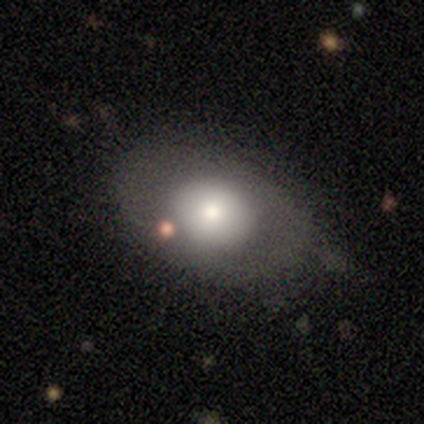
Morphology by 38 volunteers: smooth-or-featured: smooth: 74% | featured or disk: 18% | star or artifact: 8%
  how-rounded: in between: 64% | round: 36% | cigar-shaped: 0%
  merging: none: 57% | minor disturbance: 23% | major disturbance: 17% | merger: 3%